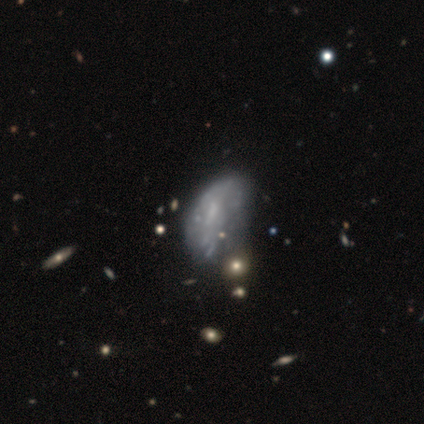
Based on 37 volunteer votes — Smooth or featured?
  - featured or disk: 57% *
  - smooth: 32%
  - star or artifact: 11%
Edge-on disk?
  - no: 90% *
  - yes: 10%
Bar?
  - no: 53% *
  - weak: 37%
  - strong: 11%
Spiral arms?
  - no: 79% *
  - yes: 21%
Bulge size?
  - small: 53% *
  - none: 32%
  - moderate: 16%
  - dominant: 0%
  - large: 0%
Merging?
  - major disturbance: 39% *
  - minor disturbance: 36%
  - none: 21%
  - merger: 3%